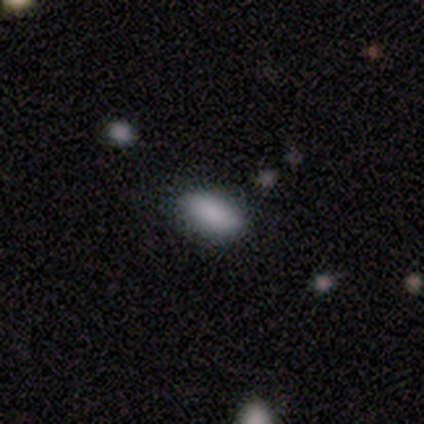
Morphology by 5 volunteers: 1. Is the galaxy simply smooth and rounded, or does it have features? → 100% smooth, 0% featured or disk, 0% star or artifact.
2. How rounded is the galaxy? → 100% in between, 0% round, 0% cigar-shaped.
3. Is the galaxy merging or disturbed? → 80% none, 20% minor disturbance, 0% major disturbance, 0% merger.